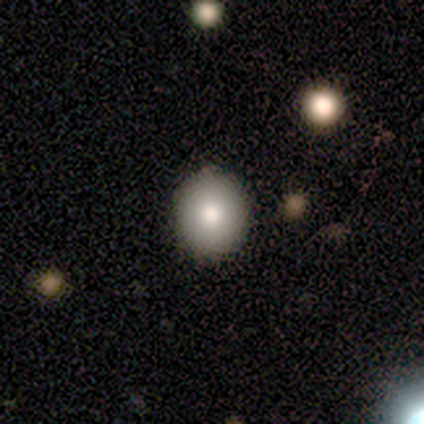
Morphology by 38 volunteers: A smooth galaxy with no disk features (95%) that is round (64%). Merging: none (89%).